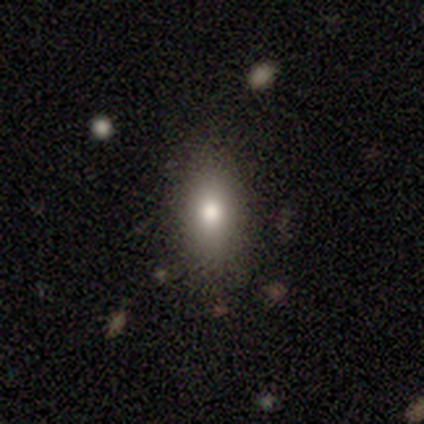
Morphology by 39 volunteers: A smooth galaxy with no disk features (69%) that is in between round and cigar-shaped (78%).

Vote fractions:
- Smooth or featured? smooth: 69% / featured or disk: 23% / star or artifact: 8%
- How rounded? in between: 78% / cigar-shaped: 15% / round: 7%
- Merging? none: 69% / minor disturbance: 19% / major disturbance: 11% / merger: 0%